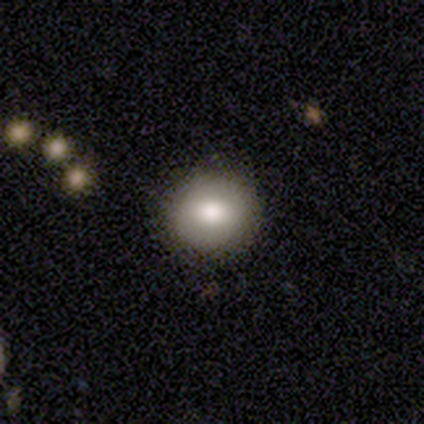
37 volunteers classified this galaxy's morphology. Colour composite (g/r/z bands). It shows a smooth galaxy with no disk features (70%) that is round (96%). Merging: none (97%).